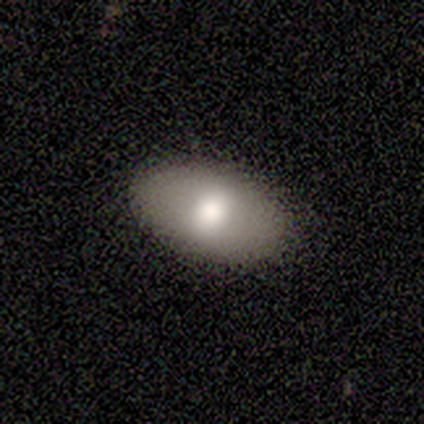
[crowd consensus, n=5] smooth 80%, featured or disk 20%, star or artifact 0%. Down the decision tree: how rounded — in between (100%); merging — none (100%).